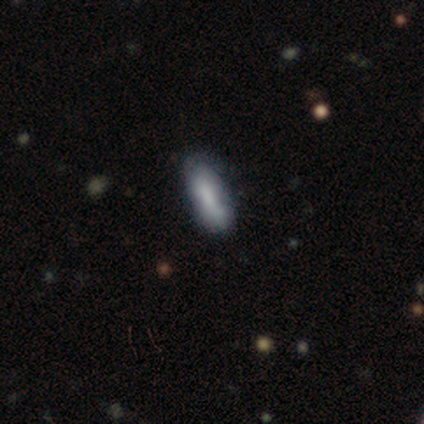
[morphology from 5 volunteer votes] This is clearly a smooth galaxy (100%). How rounded: likely cigar-shaped (60%). Merging: likely none (60%).